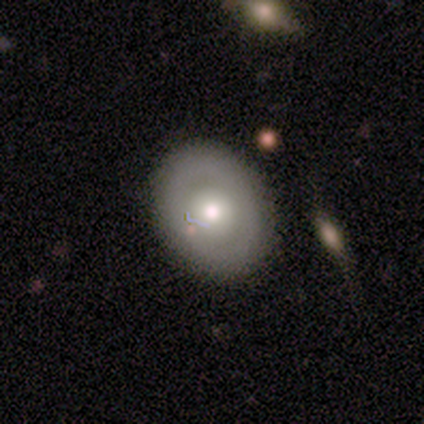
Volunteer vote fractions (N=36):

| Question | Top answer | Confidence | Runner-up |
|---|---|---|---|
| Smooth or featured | smooth | 50% | featured or disk (39%) |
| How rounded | in between | 61% | round (39%) |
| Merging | none | 69% | minor disturbance (16%) |